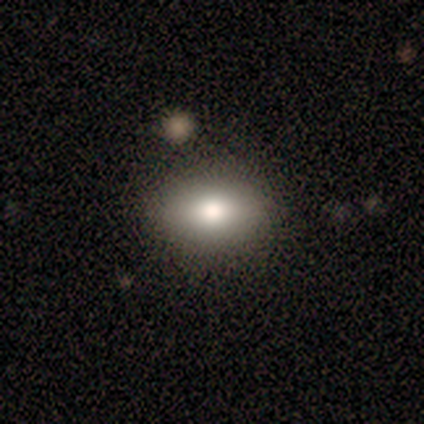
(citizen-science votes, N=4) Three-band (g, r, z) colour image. It shows a smooth galaxy with no disk features (100%) that is in between round and cigar-shaped (75%). Merging: none (100%).